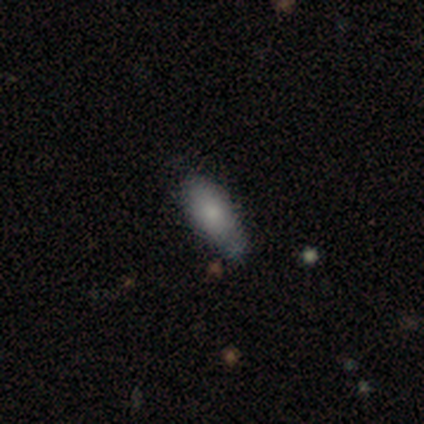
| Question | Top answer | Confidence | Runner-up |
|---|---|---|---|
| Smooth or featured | smooth | 80% | featured or disk (20%) |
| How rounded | in between | 75% | cigar-shaped (25%) |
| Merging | minor disturbance | 60% | none (20%) |